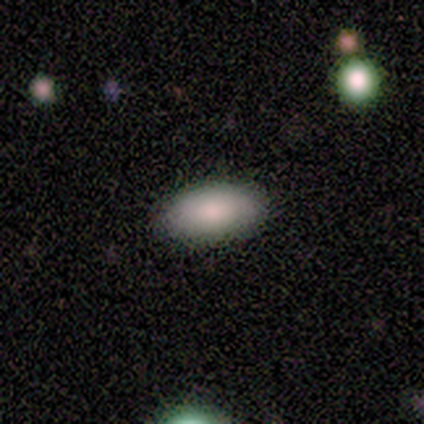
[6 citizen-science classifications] Consensus on every question: smooth or featured — smooth (100%); how rounded — in between (100%); merging — none (100%).